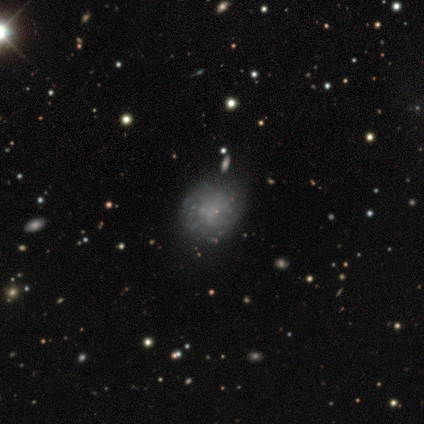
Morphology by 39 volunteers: Q: Smooth or featured?
A: featured or disk (54%); runner-up: smooth (38%)
Q: Edge-on disk?
A: no (95%); runner-up: yes (5%)
Q: Bar?
A: no (90%); runner-up: strong (5%)
Q: Spiral arms?
A: no (70%); runner-up: yes (30%)
Q: Bulge size?
A: none (80%); runner-up: small (15%)
Q: Merging?
A: none (83%); runner-up: minor disturbance (11%)